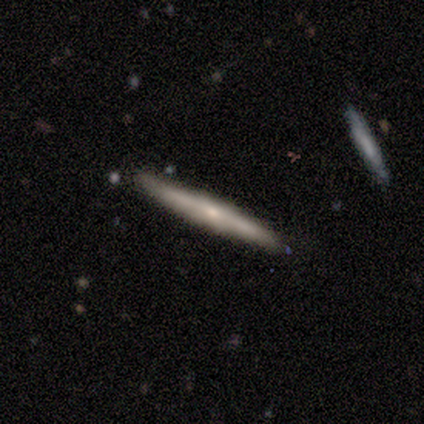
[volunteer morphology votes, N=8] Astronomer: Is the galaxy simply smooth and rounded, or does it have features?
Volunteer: smooth — 50%, tied with featured or disk at 50%.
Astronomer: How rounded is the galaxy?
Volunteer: cigar-shaped — 100%.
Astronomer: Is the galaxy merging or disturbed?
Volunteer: none — 100%.